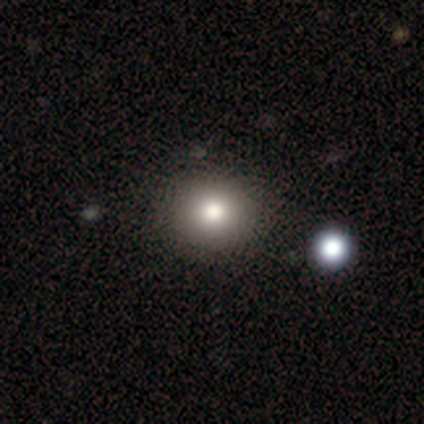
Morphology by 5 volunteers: smooth 100%, featured or disk 0%, star or artifact 0%. Down the decision tree: how rounded — round (60%); merging — none (80%).